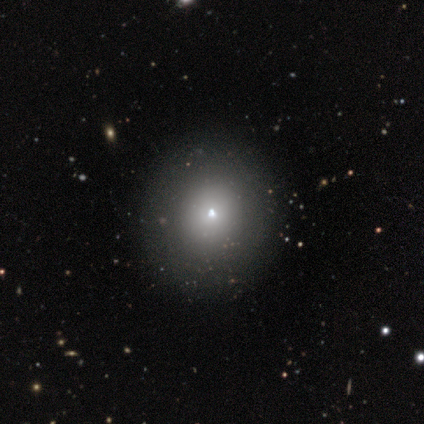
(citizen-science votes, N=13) smooth-or-featured: smooth: 77% | star or artifact: 15% | featured or disk: 8%
  how-rounded: round: 90% | in between: 10% | cigar-shaped: 0%
  merging: none: 82% | minor disturbance: 18% | major disturbance: 0% | merger: 0%